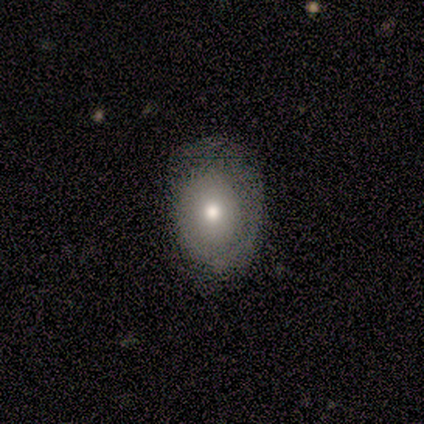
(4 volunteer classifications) This is possibly a smooth galaxy (50%, tied with featured or disk). How rounded: clearly in between (100%). Merging: possibly none (50%, tied with major disturbance).